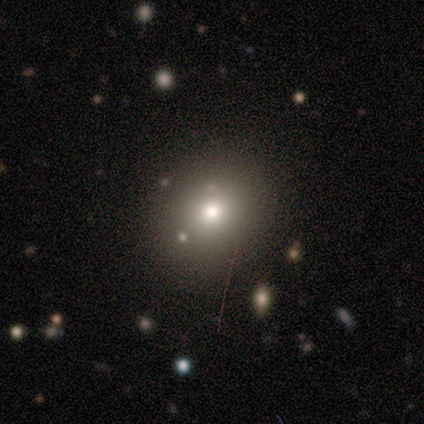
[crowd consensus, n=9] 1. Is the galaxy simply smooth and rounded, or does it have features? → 67% smooth, 22% star or artifact, 11% featured or disk.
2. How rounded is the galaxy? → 50% round (tied), 50% in between (tied), 0% cigar-shaped.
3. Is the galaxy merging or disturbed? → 100% none, 0% minor disturbance, 0% major disturbance, 0% merger.